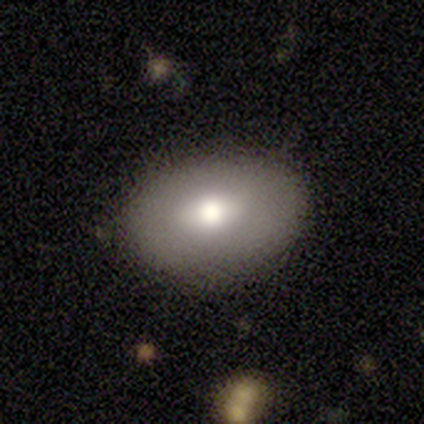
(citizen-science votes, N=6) Q: Smooth or featured?
A: smooth (83%); runner-up: featured or disk (17%)
Q: How rounded?
A: in between (100%)
Q: Merging?
A: none (83%); runner-up: minor disturbance (17%)